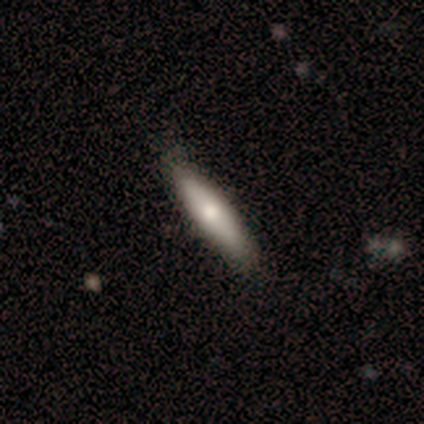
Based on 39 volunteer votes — smooth 77%, featured or disk 21%, star or artifact 3%. Down the decision tree: how rounded — cigar-shaped (90%); merging — none (66%).